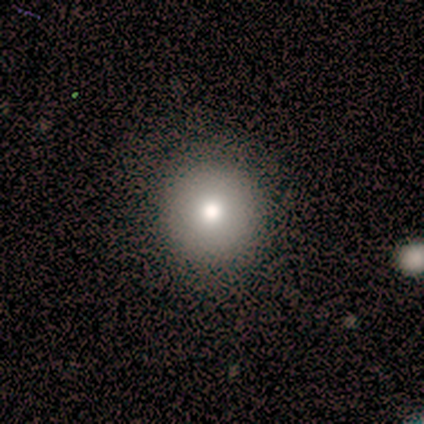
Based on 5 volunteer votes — Smooth or featured? 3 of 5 (60%) said featured or disk. Edge-on disk? 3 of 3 (100%) said no. Bar? 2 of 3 (67%) said no. Spiral arms? 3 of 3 (100%) said no. Bulge size? 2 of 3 (67%) said dominant. Merging? 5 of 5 (100%) said none.